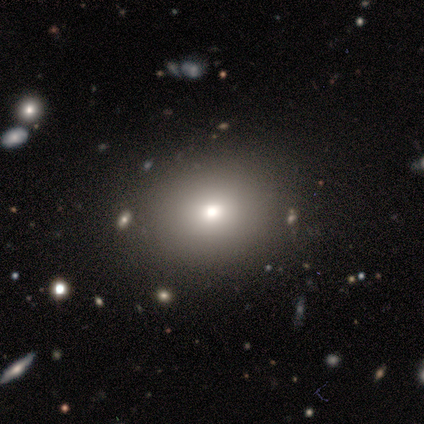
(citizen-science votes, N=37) This appears to be a smooth galaxy with no disk features (76%) that is round (61%). Merging: none (88%).